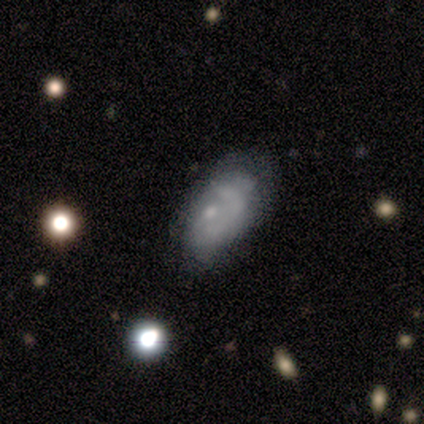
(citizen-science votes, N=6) Q: Smooth or featured?
A: featured or disk (83%); runner-up: smooth (17%)
Q: Edge-on disk?
A: no (100%)
Q: Bar?
A: no (80%); runner-up: weak (20%)
Q: Spiral arms?
A: no (60%); runner-up: yes (40%)
Q: Bulge size?
A: moderate (40%); tied with: small (40%)
Q: Merging?
A: major disturbance (50%); runner-up: minor disturbance (33%)